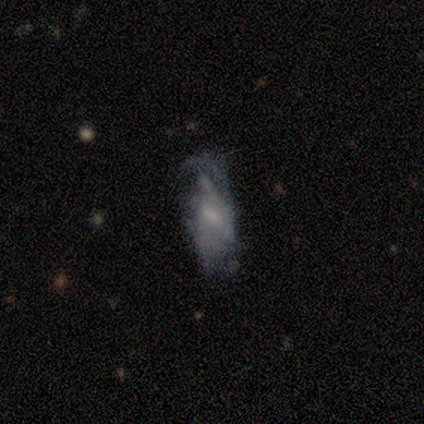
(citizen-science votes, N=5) Overall: featured or disk (60%; smooth 40%). Edge-on disk: no (100%). Bar: no (67%; weak 33%). Spiral arms: no (100%). Bulge size: small (100%). Merging: minor disturbance (40%, tied with major disturbance).